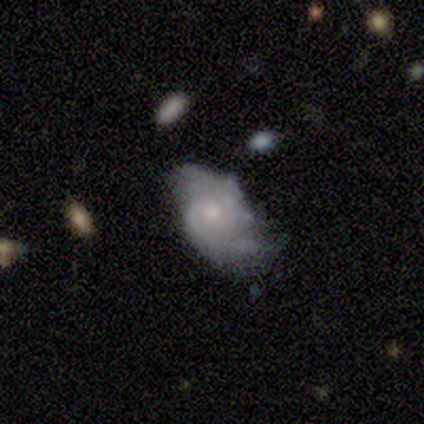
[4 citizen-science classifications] A smooth galaxy with no disk features (75%) that is in between round and cigar-shaped (100%). Merging: none (67%).